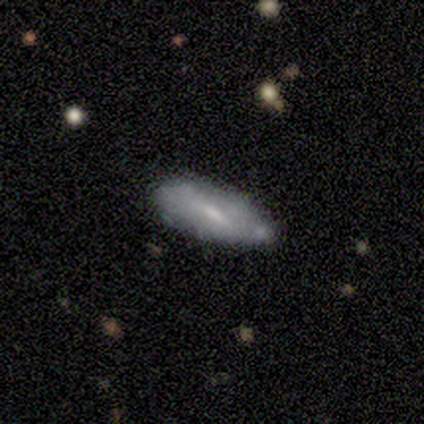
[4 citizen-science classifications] This appears to be a smooth galaxy with no disk features (50%, tied with featured or disk) that is in between round and cigar-shaped (100%). Merging: none (50%).